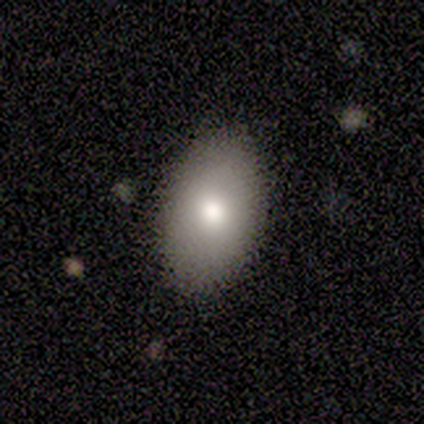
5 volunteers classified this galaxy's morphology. smooth-or-featured: smooth: 80% | featured or disk: 20% | star or artifact: 0%
  how-rounded: in between: 100% | round: 0% | cigar-shaped: 0%
  merging: none: 100% | minor disturbance: 0% | major disturbance: 0% | merger: 0%